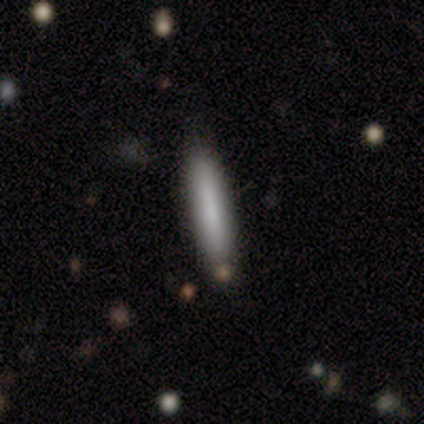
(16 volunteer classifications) This is clearly a smooth galaxy (81%). How rounded: clearly cigar-shaped (100%). Merging: clearly none (87%).